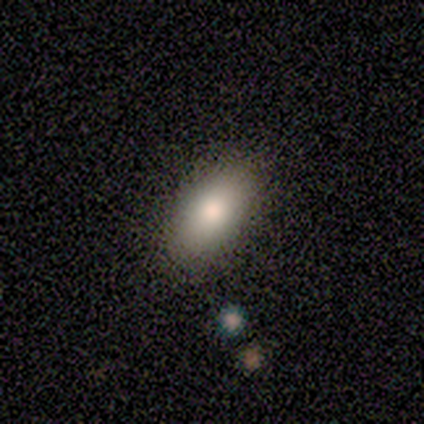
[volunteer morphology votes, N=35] Smooth or featured: smooth — 77% (featured or disk — 20%)
How rounded: in between — 93% (round — 4%)
Merging: none — 68%